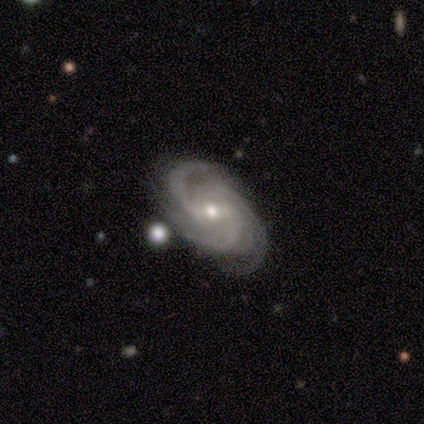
Smooth or featured? featured or disk (100%)
Edge-on disk? no (100%)
Bar? no (60%)
Spiral arms? yes (100%)
Spiral winding? medium (80%)
Spiral arm count? 3 (80%)
Bulge size? small (80%)
Merging? none (80%)